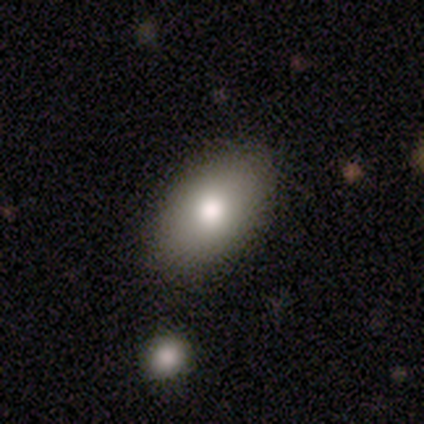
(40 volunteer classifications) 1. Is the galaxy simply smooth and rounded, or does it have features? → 80% smooth, 18% featured or disk, 2% star or artifact.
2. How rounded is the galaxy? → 91% in between, 6% round, 3% cigar-shaped.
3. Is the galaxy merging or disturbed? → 82% none, 15% minor disturbance, 3% major disturbance, 0% merger.